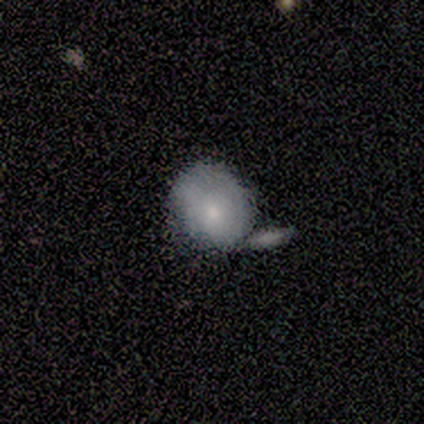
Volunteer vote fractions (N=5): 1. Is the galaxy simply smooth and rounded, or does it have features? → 60% featured or disk, 40% smooth, 0% star or artifact.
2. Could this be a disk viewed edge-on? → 100% no, 0% yes.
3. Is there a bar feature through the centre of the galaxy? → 100% no, 0% strong, 0% weak.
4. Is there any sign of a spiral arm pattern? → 100% no, 0% yes.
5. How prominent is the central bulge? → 100% small, 0% dominant, 0% large, 0% moderate, 0% none.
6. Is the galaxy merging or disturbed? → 60% minor disturbance, 40% merger, 0% none, 0% major disturbance.